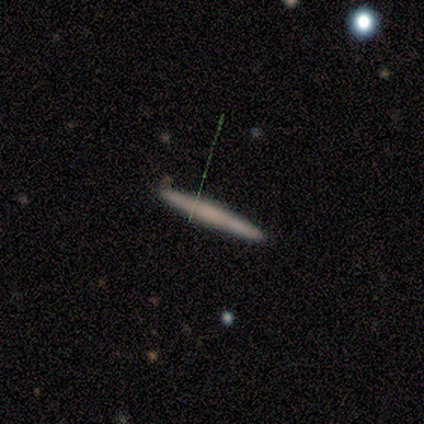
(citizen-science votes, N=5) A smooth galaxy with no disk features (40%, tied with featured or disk) that is cigar-shaped (100%). Merging: none (100%).